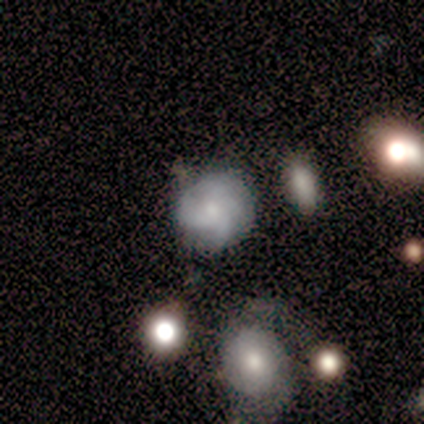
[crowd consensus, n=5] featured or disk 80%, smooth 20%, star or artifact 0%. Down the decision tree: edge-on disk — no (100%); bar — no (100%); spiral arms — yes (100%); spiral arm count — can't tell (75%); spiral winding — medium (50%, tied with loose); bulge size — moderate (50%, tied with small); merging — none (40%).